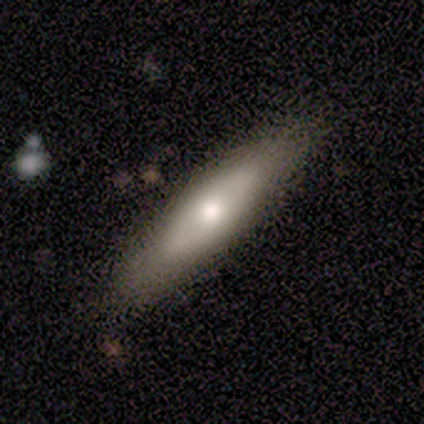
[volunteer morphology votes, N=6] This is clearly a smooth galaxy (83%). How rounded: clearly cigar-shaped (80%). Merging: marginally none (33%, tied with minor disturbance and major disturbance).